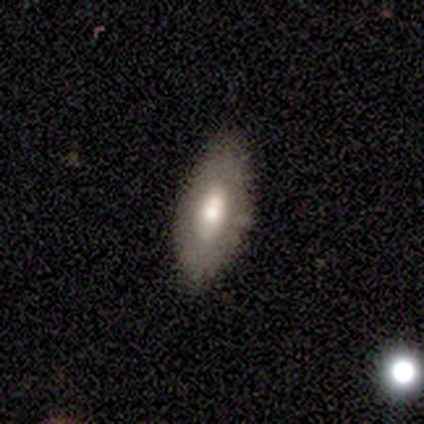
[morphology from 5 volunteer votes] Volunteers were most divided on "smooth or featured": featured or disk: 60%, smooth: 40%, star or artifact: 0%. More confident: edge-on disk — no (100%); bar — no (100%); spiral arms — no (100%); bulge size — large (100%); merging — none (80%).